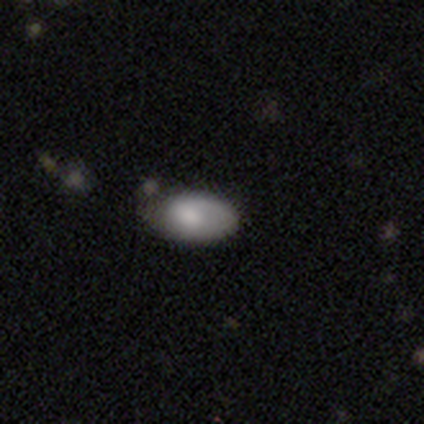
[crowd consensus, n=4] A smooth galaxy with no disk features (75%) that is in between round and cigar-shaped (100%). Merging: none (100%).